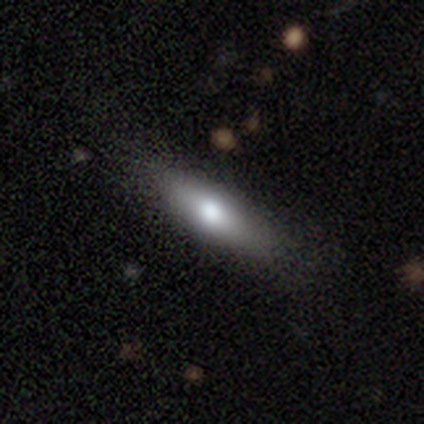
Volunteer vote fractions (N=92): Smooth or featured? smooth (68%)
How rounded? cigar-shaped (54%)
Merging? none (76%)